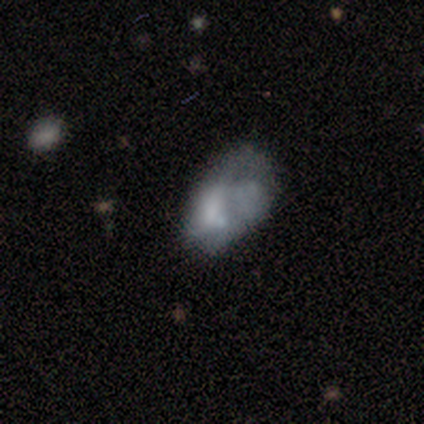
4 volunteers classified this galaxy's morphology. This is likely a featured or disk galaxy (75%). It is clearly not viewed edge-on (100%). Bar: likely no (67%). Spiral arm pattern: clearly no (100%). Central bulge: likely small (67%). Merging: possibly major disturbance (50%).